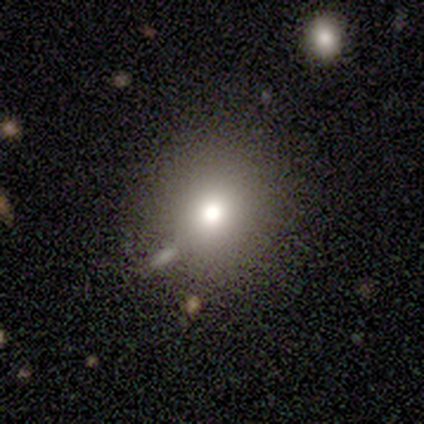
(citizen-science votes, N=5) Consensus on every question: smooth or featured — smooth (100%); how rounded — round (100%); merging — none (100%).